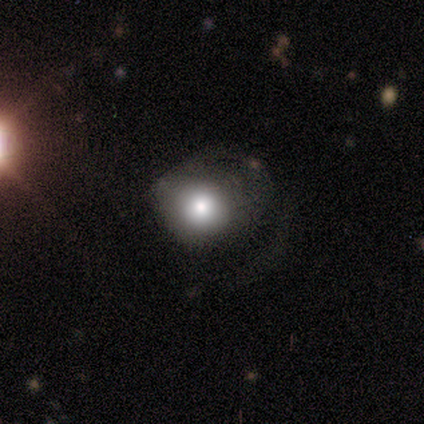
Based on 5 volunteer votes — Smooth or featured?
  - smooth: 80% *
  - star or artifact: 20%
  - featured or disk: 0%
How rounded?
  - round: 100% *
  - in between: 0%
  - cigar-shaped: 0%
Merging?
  - none: 50% * (tied)
  - major disturbance: 50% * (tied)
  - minor disturbance: 0%
  - merger: 0%